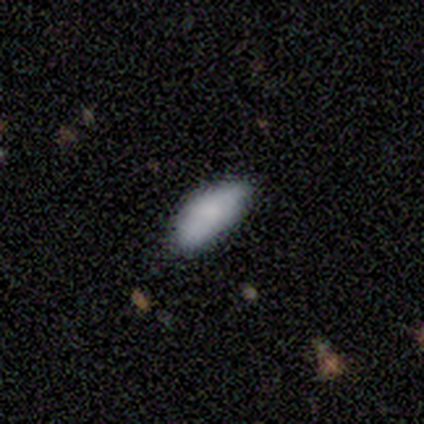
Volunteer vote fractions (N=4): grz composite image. It shows a smooth galaxy with no disk features (100%) that is cigar-shaped (75%). Merging: minor disturbance (75%).